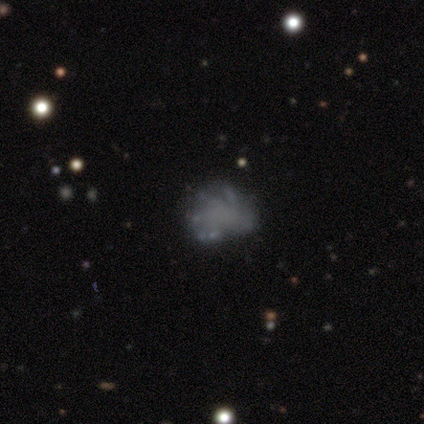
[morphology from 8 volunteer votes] Q: Smooth or featured?
A: smooth (50%); runner-up: featured or disk (38%)
Q: How rounded?
A: in between (100%)
Q: Merging?
A: major disturbance (71%); runner-up: none (29%)